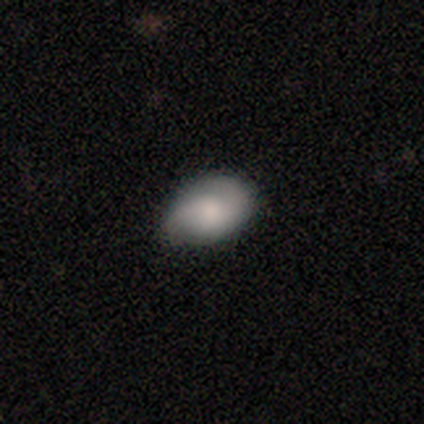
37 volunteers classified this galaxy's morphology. smooth_or_featured: smooth (p=0.62) [alt: featured or disk p=0.32]
how_rounded: in between (p=0.96) [alt: round p=0.04]
merging: none (p=0.60) [alt: minor disturbance p=0.37]